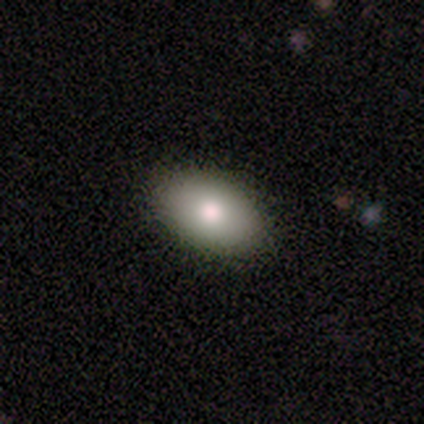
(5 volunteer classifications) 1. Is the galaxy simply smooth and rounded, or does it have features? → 80% smooth, 20% featured or disk, 0% star or artifact.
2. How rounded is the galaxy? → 100% in between, 0% round, 0% cigar-shaped.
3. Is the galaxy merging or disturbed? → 100% none, 0% minor disturbance, 0% major disturbance, 0% merger.